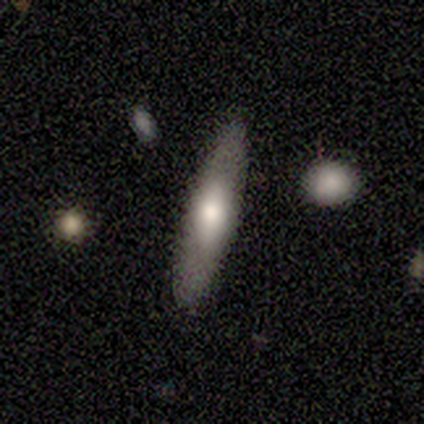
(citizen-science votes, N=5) smooth-or-featured: smooth: 60% | featured or disk: 40% | star or artifact: 0%
  how-rounded: cigar-shaped: 100% | round: 0% | in between: 0%
  merging: none: 100% | minor disturbance: 0% | major disturbance: 0% | merger: 0%